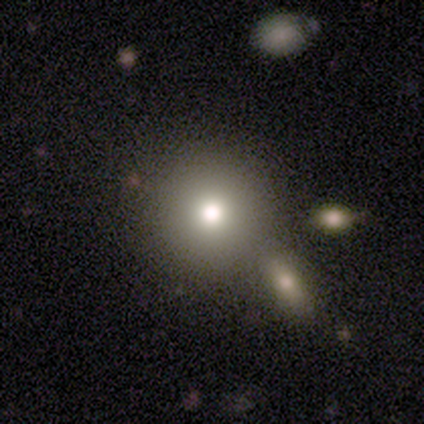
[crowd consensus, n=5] Smooth or featured? 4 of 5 (80%) said smooth. How rounded? 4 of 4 (100%) said round. Merging? 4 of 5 (80%) said none.